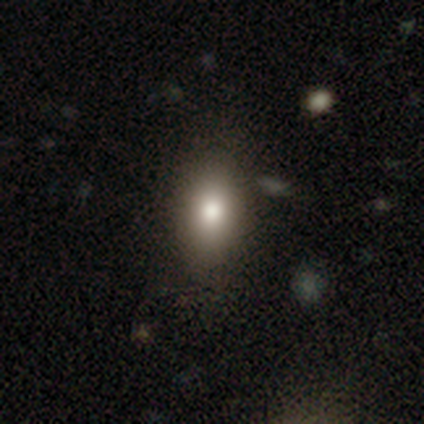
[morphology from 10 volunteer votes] type=smooth (100%); roundness=in between (70%); merging=none (90%).